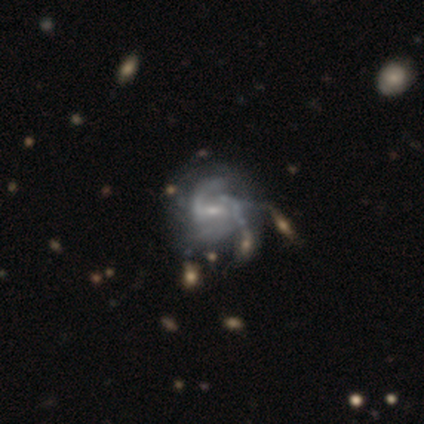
Overall: featured or disk (92%). Edge-on disk: no (100%). Bar: weak (57%; no 26%). Spiral arms: yes (100%). Spiral arm count: 2 (43%; can't tell 29%). Spiral winding: medium (77%). Bulge size: small (71%). Merging: none (31%; minor disturbance 23%).